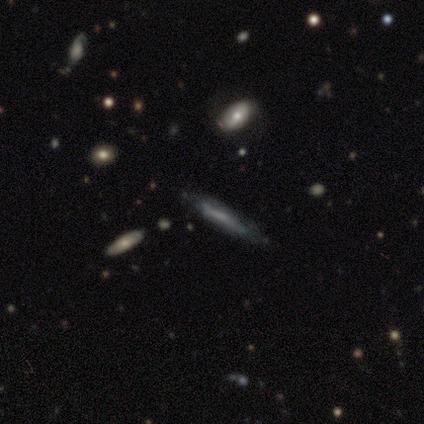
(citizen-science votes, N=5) smooth-or-featured: featured or disk: 60% | smooth: 40% | star or artifact: 0%
  disk-edge-on: no: 67% | yes: 33%
    bar: weak: 50% (tied) | no: 50% (tied) | strong: 0%
    has-spiral-arms: yes: 50% (tied) | no: 50% (tied)
      spiral-winding: tight: 100% | medium: 0% | loose: 0%
      spiral-arm-count: can't tell: 100% | 1: 0% | 2: 0% | 3: 0% | 4: 0% | more than 4: 0%
    bulge-size: moderate: 50% (tied) | small: 50% (tied) | dominant: 0% | large: 0% | none: 0%
  merging: none: 80% | minor disturbance: 20% | major disturbance: 0% | merger: 0%